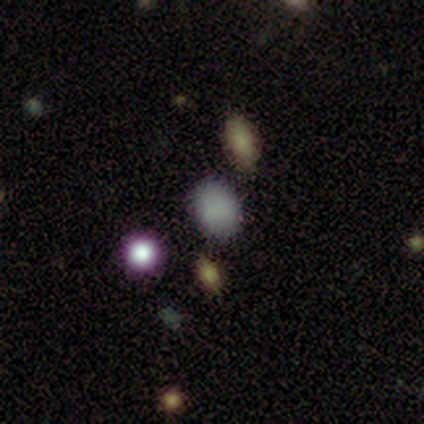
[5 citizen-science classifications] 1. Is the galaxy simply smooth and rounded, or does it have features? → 60% smooth, 40% star or artifact, 0% featured or disk.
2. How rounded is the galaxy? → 100% in between, 0% round, 0% cigar-shaped.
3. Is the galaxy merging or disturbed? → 100% none, 0% minor disturbance, 0% major disturbance, 0% merger.